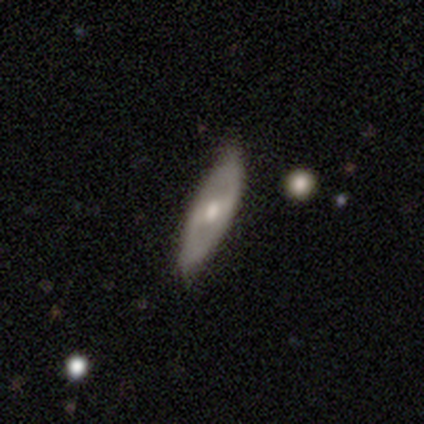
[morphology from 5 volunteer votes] Volunteers were most divided on "spiral winding" (2-way tie): medium: 50%, loose: 50%, tight: 0%; "bulge size" (2-way tie): moderate: 50%, small: 50%, dominant: 0%, large: 0%, none: 0%. More confident: bar — strong (100%); spiral arms — yes (100%); spiral arm count — 2 (100%); merging — none (100%); edge-on disk — no (67%); smooth or featured — featured or disk (60%).